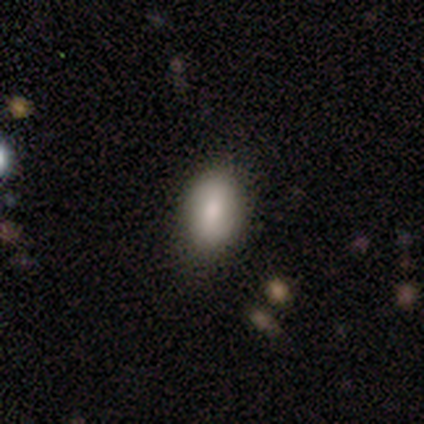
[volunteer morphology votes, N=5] type=featured or disk (60%); edge-on=no (67%); bar=no (100%); spiral arms=yes (50%, tied with no); winding=medium (100%); arm count=can't tell (100%); bulge=moderate (100%); merging=none (80%).